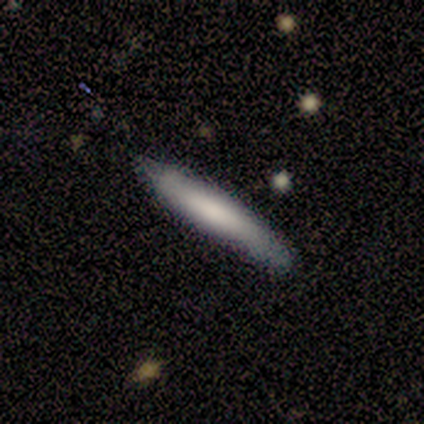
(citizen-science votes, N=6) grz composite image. It shows a smooth galaxy with no disk features (50%) that is cigar-shaped (100%). Merging: none (100%).